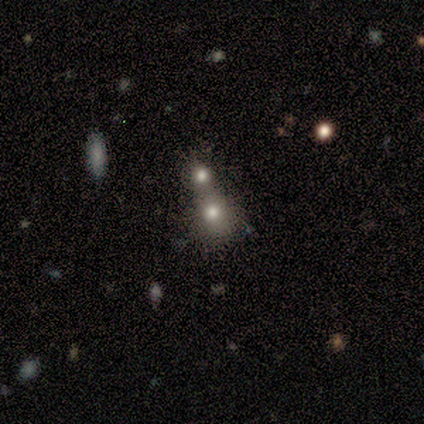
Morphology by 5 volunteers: A smooth galaxy with no disk features (100%) that is round (80%). Merging: merger (80%).